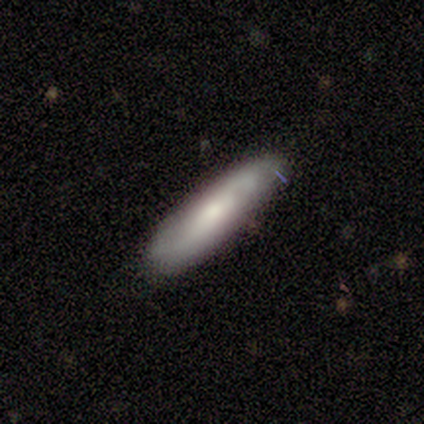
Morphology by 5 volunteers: smooth 60%, star or artifact 40%, featured or disk 0%. Down the decision tree: how rounded — cigar-shaped (100%); merging — none (67%).